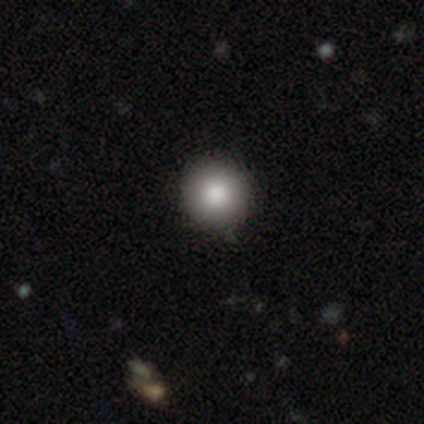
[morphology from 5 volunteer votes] Smooth or featured? smooth (80%)
How rounded? round (100%)
Merging? none (100%)